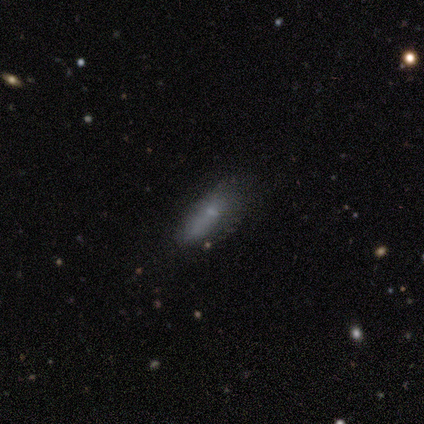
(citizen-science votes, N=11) This is clearly a smooth galaxy (91%). How rounded: likely in between (70%). Merging: possibly none (55%).